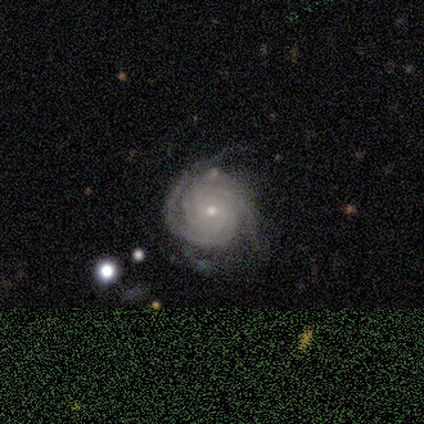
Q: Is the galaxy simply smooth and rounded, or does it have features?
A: featured or disk — 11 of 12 (92%).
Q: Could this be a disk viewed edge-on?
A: no — 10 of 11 (91%).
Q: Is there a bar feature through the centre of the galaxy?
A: no — 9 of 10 (90%).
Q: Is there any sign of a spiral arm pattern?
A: yes — 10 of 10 (100%).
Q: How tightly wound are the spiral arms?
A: tight — 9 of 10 (90%).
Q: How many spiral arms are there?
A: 2 — 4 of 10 (40%, tied with can't tell).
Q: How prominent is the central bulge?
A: small — 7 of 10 (70%).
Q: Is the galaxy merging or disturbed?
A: none — 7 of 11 (64%).